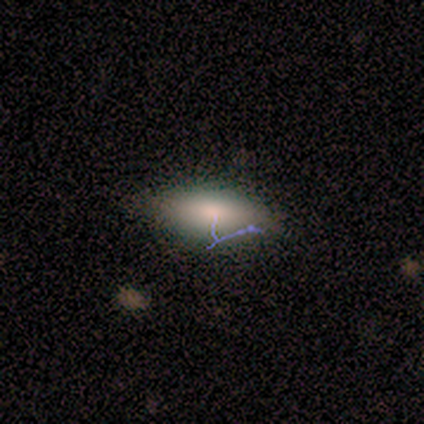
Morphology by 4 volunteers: Smooth or featured: smooth — 50% (tied with featured or disk — 50%)
How rounded: round — 50% (tied with in between — 50%)
Merging: none — 50% (minor disturbance — 25%)